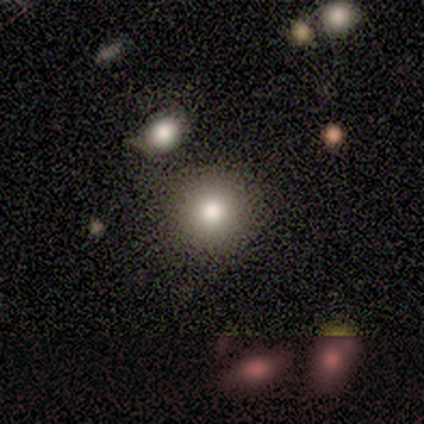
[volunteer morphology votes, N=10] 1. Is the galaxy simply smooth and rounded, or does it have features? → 70% smooth, 20% star or artifact, 10% featured or disk.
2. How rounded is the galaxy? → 100% round, 0% in between, 0% cigar-shaped.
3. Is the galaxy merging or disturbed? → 62% none, 25% minor disturbance, 12% merger, 0% major disturbance.